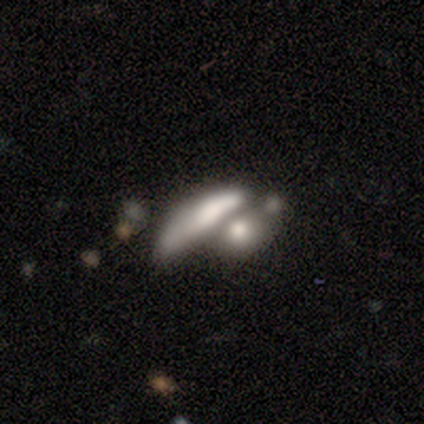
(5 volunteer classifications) Smooth or featured? 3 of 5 (60%) said smooth. How rounded? 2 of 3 (67%) said cigar-shaped. Merging? 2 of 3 (67%) said merger.